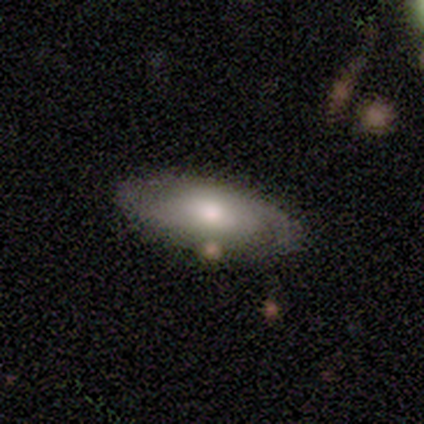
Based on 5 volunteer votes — smooth-or-featured: featured or disk: 60% | smooth: 40% | star or artifact: 0%
  disk-edge-on: yes: 67% | no: 33%
    edge-on-bulge: none: 50% (tied) | rounded: 50% (tied) | boxy: 0%
  merging: none: 60% | minor disturbance: 20% | major disturbance: 20% | merger: 0%